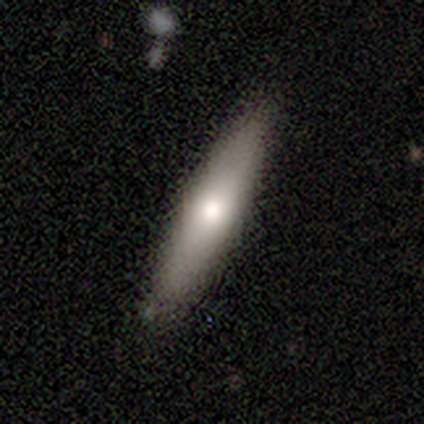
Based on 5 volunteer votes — smooth_or_featured: featured or disk (p=0.60) [alt: smooth p=0.40]
disk_edge_on: yes (p=1.00)
edge_on_bulge: rounded (p=1.00)
merging: none (p=0.80) [alt: minor disturbance p=0.20]